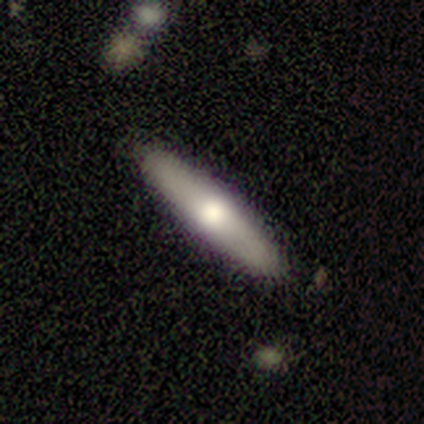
This appears to be a smooth galaxy with no disk features (80%) that is cigar-shaped (100%). Merging: none (80%).